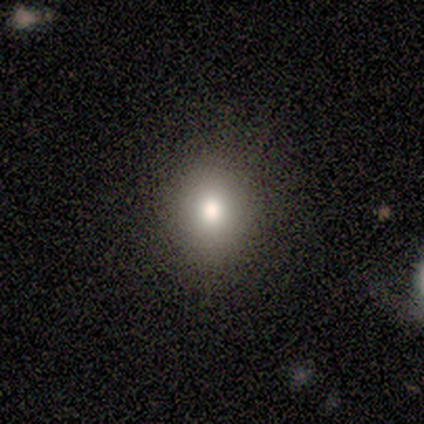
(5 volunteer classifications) A smooth galaxy with no disk features (60%) that is round (67%).

Vote fractions:
- Smooth or featured? smooth: 60% / star or artifact: 40% / featured or disk: 0%
- How rounded? round: 67% / in between: 33% / cigar-shaped: 0%
- Merging? none: 100% / minor disturbance: 0% / major disturbance: 0% / merger: 0%